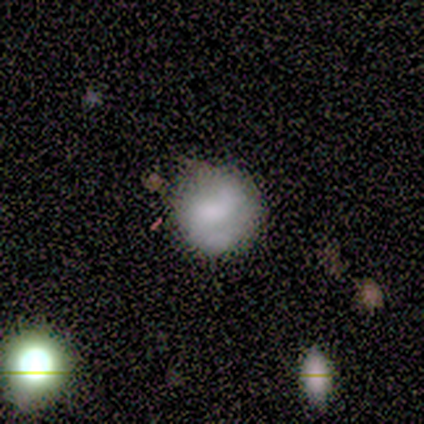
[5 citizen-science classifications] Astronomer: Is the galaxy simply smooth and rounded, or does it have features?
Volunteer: smooth — 100%.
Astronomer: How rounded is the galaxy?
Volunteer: round — 80%.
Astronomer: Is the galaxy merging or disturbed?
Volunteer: none — 60% (runner-up: minor disturbance, 40%).